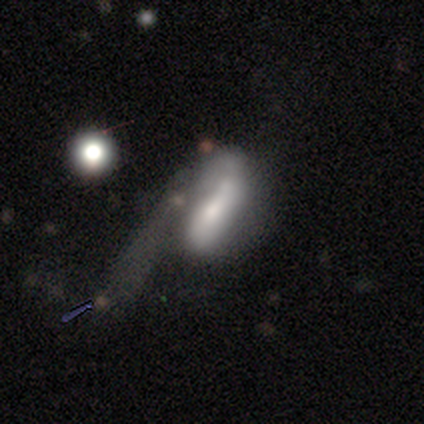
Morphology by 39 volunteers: A smooth galaxy with no disk features (44%, tied with featured or disk) that is in between round and cigar-shaped (76%). Merging: major disturbance (68%).